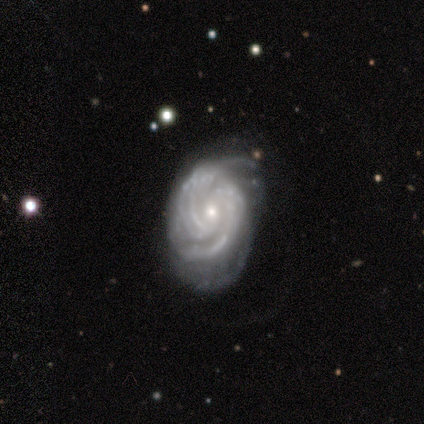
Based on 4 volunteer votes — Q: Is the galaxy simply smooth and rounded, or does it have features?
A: featured or disk — 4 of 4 (100%).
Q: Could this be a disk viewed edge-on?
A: no — 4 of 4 (100%).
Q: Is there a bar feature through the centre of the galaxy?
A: strong — 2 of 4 (50%, tied with no).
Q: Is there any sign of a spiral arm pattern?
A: yes — 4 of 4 (100%).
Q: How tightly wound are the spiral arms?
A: tight — 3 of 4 (75%).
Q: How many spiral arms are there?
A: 3 — 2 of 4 (50%).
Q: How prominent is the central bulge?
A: small — 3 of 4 (75%).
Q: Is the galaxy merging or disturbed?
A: minor disturbance — 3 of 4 (75%).